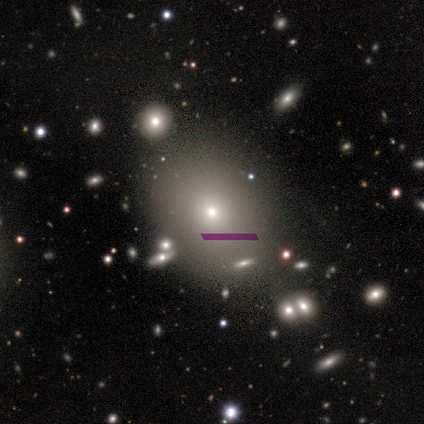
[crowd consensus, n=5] Smooth or featured: smooth — 80% (star or artifact — 20%)
How rounded: round — 50% (tied with in between — 50%)
Merging: none — 50% (tied with minor disturbance — 50%)